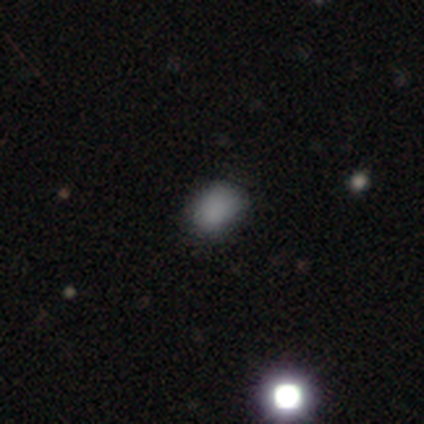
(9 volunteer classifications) This is clearly a smooth galaxy (100%). How rounded: likely in between (78%). Merging: likely none (67%).